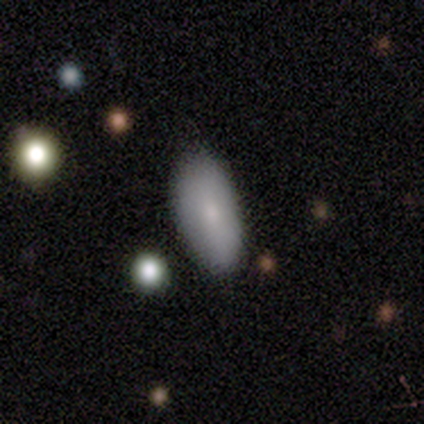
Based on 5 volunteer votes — A smooth galaxy with no disk features (80%) that is in between round and cigar-shaped (100%). Merging: none (100%).